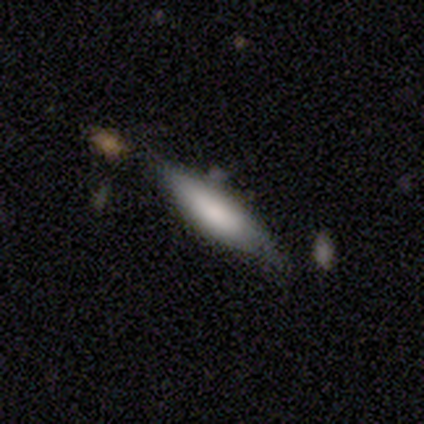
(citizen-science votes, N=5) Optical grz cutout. It shows a featured or disk galaxy (80%) viewed edge-on (75%) with a boxy central bulge (33%, tied with none and rounded). Merging: none (100%).